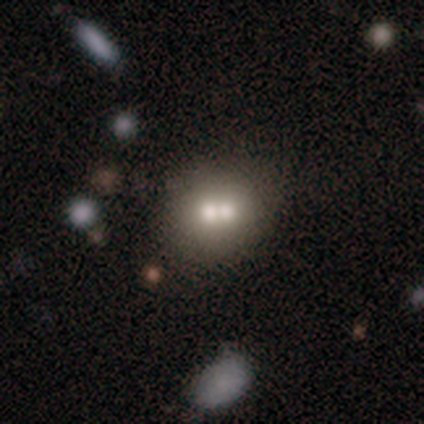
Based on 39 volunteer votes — Smooth or featured?
  - smooth: 64% *
  - featured or disk: 31%
  - star or artifact: 5%
How rounded?
  - round: 88% *
  - in between: 12%
  - cigar-shaped: 0%
Merging?
  - merger: 62% *
  - none: 24%
  - minor disturbance: 11%
  - major disturbance: 3%